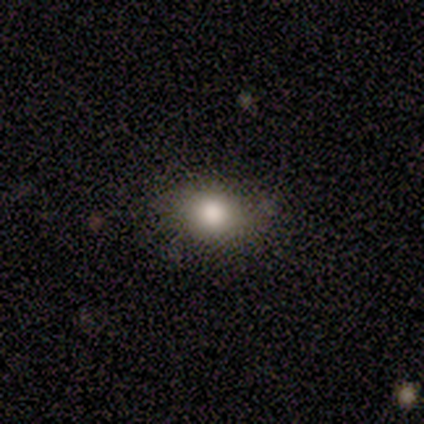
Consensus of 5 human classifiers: Q: Smooth or featured?
A: smooth (60%); runner-up: featured or disk (20%)
Q: How rounded?
A: round (67%); runner-up: in between (33%)
Q: Merging?
A: none (75%); runner-up: minor disturbance (25%)